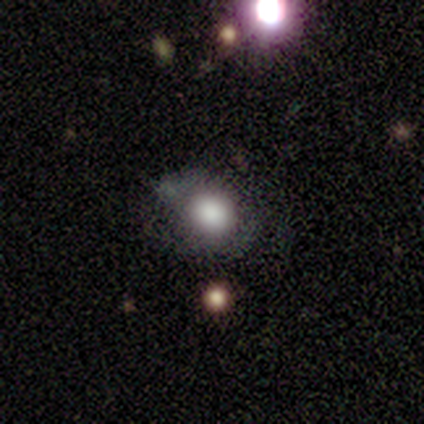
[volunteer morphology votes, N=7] Smooth or featured? smooth (86%)
How rounded? round (50%, tied with in between)
Merging? none (50%)